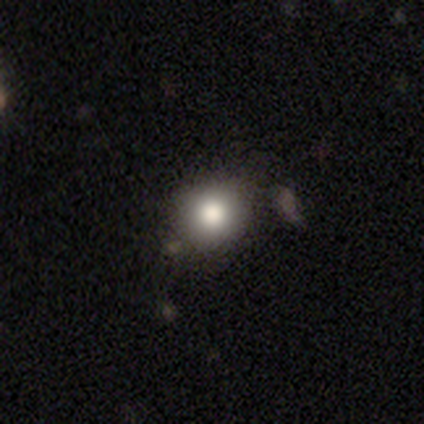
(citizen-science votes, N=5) smooth_or_featured: smooth (p=0.80) [alt: featured or disk p=0.20]
how_rounded: round (p=0.75) [alt: in between p=0.25]
merging: none (p=0.60) [alt: minor disturbance p=0.40]